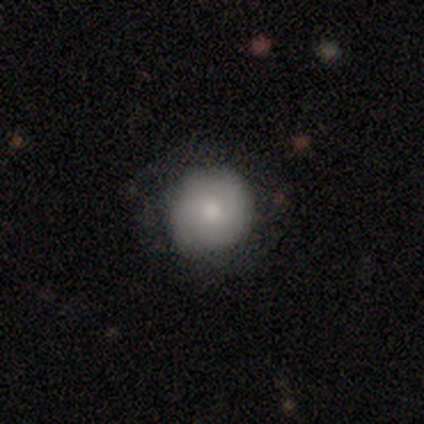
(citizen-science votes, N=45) Volunteers were most divided on "smooth or featured": smooth: 76%, featured or disk: 20%, star or artifact: 4%. More confident: how rounded — round (94%); merging — none (81%).